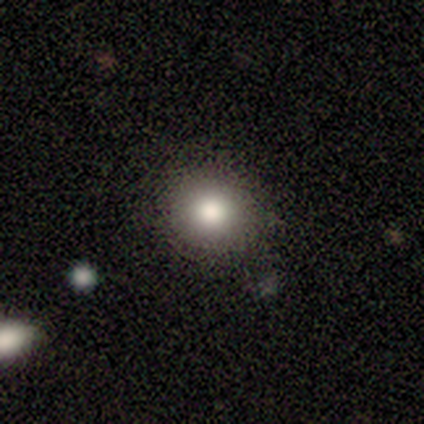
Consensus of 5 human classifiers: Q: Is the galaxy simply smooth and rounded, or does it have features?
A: smooth — 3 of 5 (60%).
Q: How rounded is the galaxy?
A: round — 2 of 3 (67%).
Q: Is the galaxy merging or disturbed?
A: none — 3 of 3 (100%).